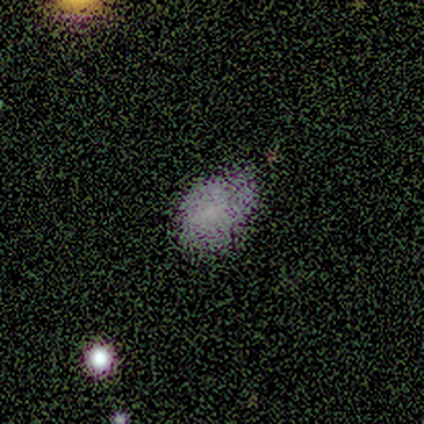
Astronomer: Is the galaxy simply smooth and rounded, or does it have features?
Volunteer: smooth — 62%.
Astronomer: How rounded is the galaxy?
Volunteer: in between — 88%.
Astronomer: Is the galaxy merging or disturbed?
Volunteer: none — 52%.